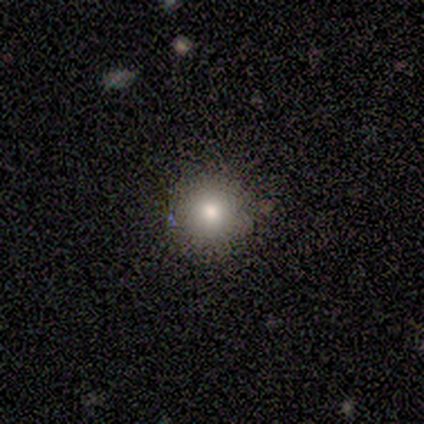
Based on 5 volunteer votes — smooth_or_featured: smooth (p=0.80) [alt: star or artifact p=0.20]
how_rounded: round (p=1.00)
merging: none (p=1.00)